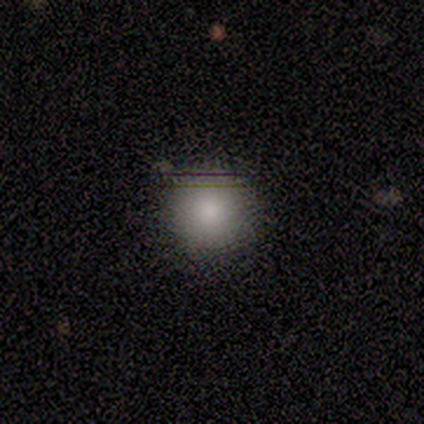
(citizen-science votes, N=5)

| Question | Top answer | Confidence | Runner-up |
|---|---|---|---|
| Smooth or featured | smooth | 80% | featured or disk (20%) |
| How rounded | round | 100% | — |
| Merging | none | 80% | minor disturbance (20%) |